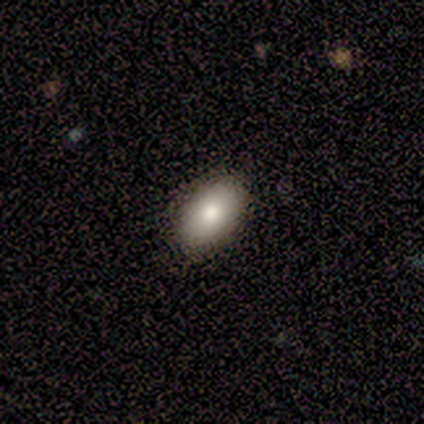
smooth 100%, featured or disk 0%, star or artifact 0%. Down the decision tree: how rounded — in between (100%); merging — none (67%).